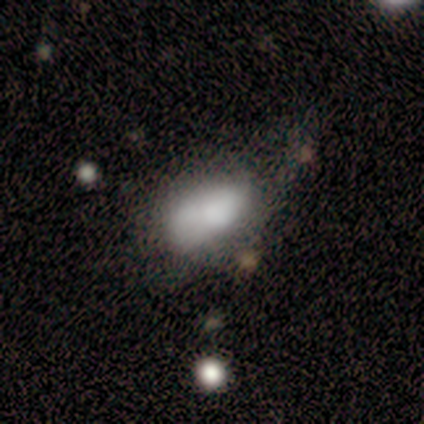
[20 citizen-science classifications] Smooth or featured? 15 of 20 (75%) said smooth. How rounded? 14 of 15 (93%) said in between. Merging? 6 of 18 (33%) said major disturbance.